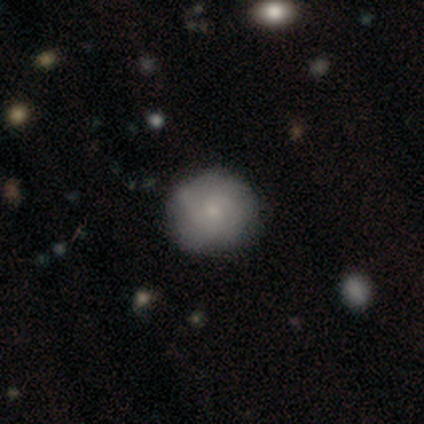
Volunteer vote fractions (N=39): Smooth or featured: smooth — 51% (featured or disk — 44%)
How rounded: round — 95% (in between — 5%)
Merging: none — 65% (minor disturbance — 8%)